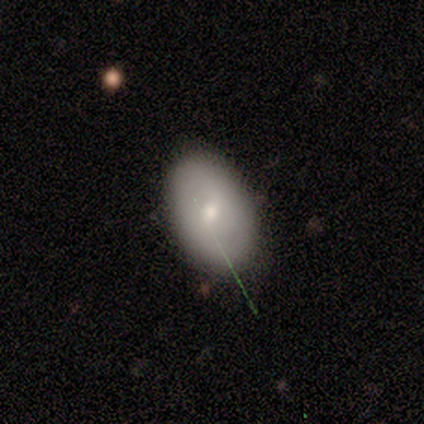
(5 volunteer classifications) Q: Smooth or featured?
A: smooth (100%)
Q: How rounded?
A: in between (80%); runner-up: round (20%)
Q: Merging?
A: none (100%)